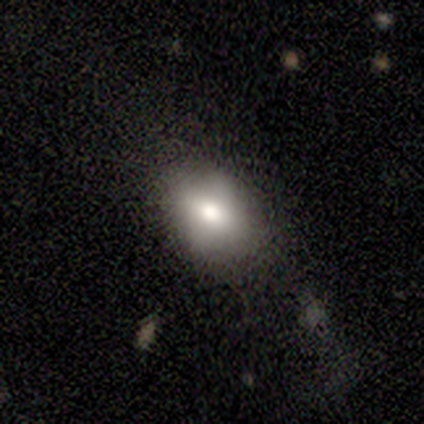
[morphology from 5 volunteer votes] Smooth or featured? smooth (80%)
How rounded? in between (100%)
Merging? major disturbance (60%)